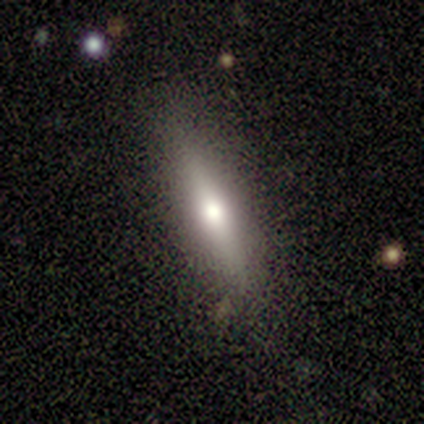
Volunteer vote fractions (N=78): A smooth galaxy with no disk features (65%) that is cigar-shaped (82%).

Vote fractions:
- Smooth or featured? smooth: 65% / featured or disk: 31% / star or artifact: 4%
- How rounded? cigar-shaped: 82% / in between: 12% / round: 6%
- Merging? none: 41% / minor disturbance: 5% / merger: 4% / major disturbance: 1%